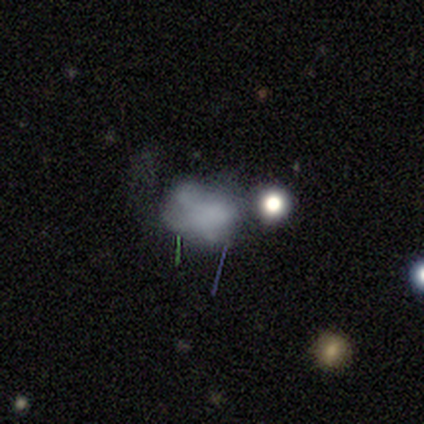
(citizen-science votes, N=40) Morphology: type=smooth (55%); roundness=in between (55%); merging=none (34%).